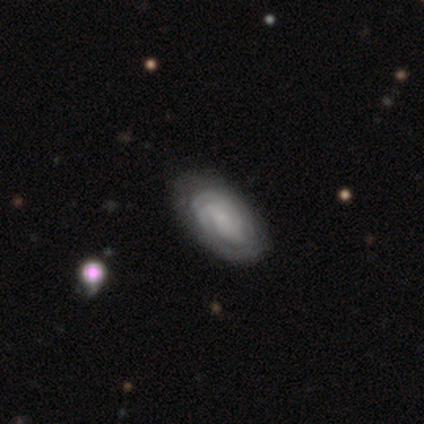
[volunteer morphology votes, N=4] Q: Smooth or featured?
A: featured or disk (100%)
Q: Edge-on disk?
A: no (100%)
Q: Bar?
A: no (75%); runner-up: weak (25%)
Q: Spiral arms?
A: yes (100%)
Q: Spiral winding?
A: tight (75%); runner-up: medium (25%)
Q: Spiral arm count?
A: 2 (50%); tied with: can't tell (50%)
Q: Bulge size?
A: small (50%); runner-up: moderate (25%)
Q: Merging?
A: none (75%); runner-up: minor disturbance (25%)